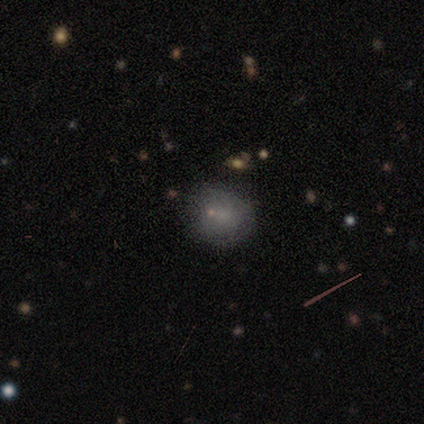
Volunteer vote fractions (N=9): A smooth galaxy with no disk features (44%, tied with featured or disk) that is round (75%). Merging: none (100%).